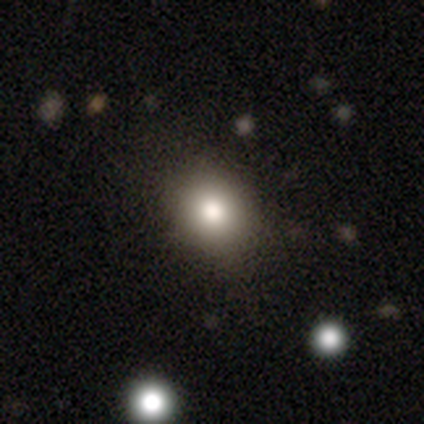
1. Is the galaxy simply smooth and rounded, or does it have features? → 87% smooth, 8% featured or disk, 5% star or artifact.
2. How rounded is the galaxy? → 61% round, 39% in between, 0% cigar-shaped.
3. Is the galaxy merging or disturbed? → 78% none, 22% minor disturbance, 0% major disturbance, 0% merger.